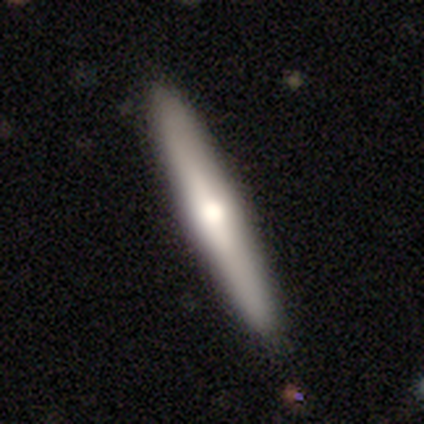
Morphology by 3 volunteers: Smooth or featured? smooth (100%)
How rounded? cigar-shaped (67%)
Merging? none (67%)